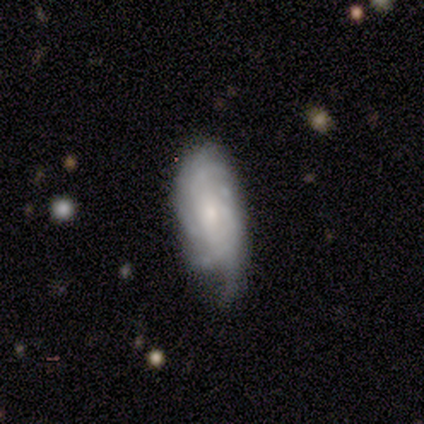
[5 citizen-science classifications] This appears to be a smooth galaxy with no disk features (60%) that is cigar-shaped (67%). Merging: minor disturbance (60%).